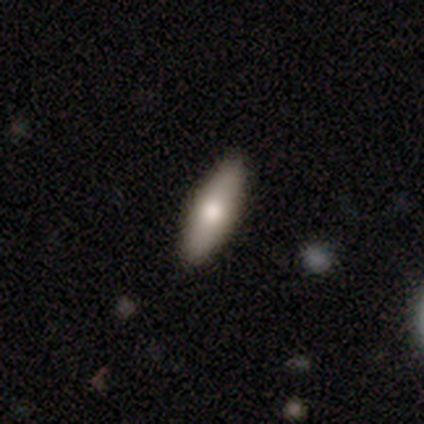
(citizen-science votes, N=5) smooth 100%, featured or disk 0%, star or artifact 0%. Down the decision tree: how rounded — in between (60%); merging — none (80%).